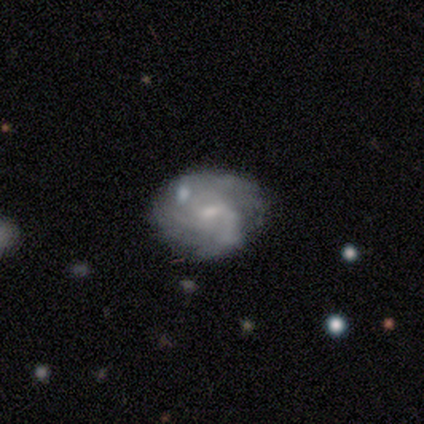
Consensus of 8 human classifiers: smooth_or_featured: featured or disk (p=0.88) [alt: smooth p=0.12]
disk_edge_on: no (p=1.00)
bar: weak (p=0.57) [alt: no p=0.43]
has_spiral_arms: yes (p=1.00)
spiral_winding: tight (p=0.43) [alt: medium p=0.29]
spiral_arm_count: can't tell (p=0.86) [alt: 2 p=0.14]
bulge_size: small (p=0.57) [alt: moderate p=0.29]
merging: none (p=0.62) [alt: minor disturbance p=0.12]